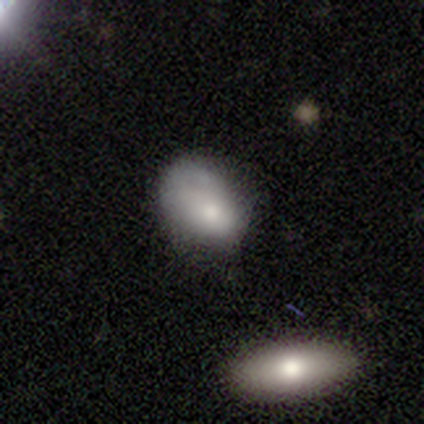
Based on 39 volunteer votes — This is likely a smooth galaxy (72%). How rounded: clearly in between (82%). Merging: possibly minor disturbance (50%).